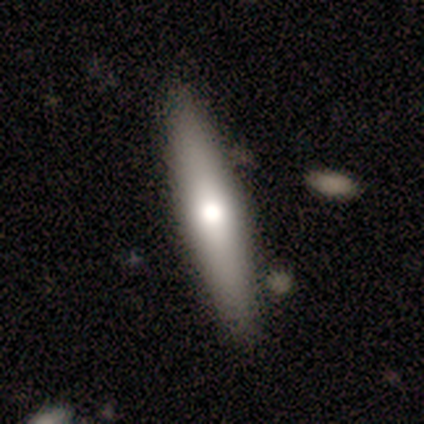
Q: Smooth or featured?
A: featured or disk (54%); runner-up: smooth (44%)
Q: Edge-on disk?
A: yes (90%); runner-up: no (10%)
Q: Edge-on bulge?
A: rounded (95%); runner-up: boxy (5%)
Q: Merging?
A: none (82%); runner-up: minor disturbance (11%)